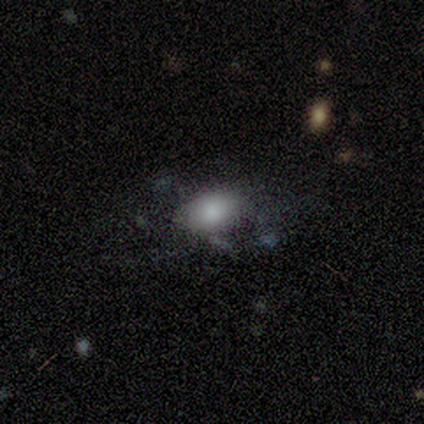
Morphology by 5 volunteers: smooth_or_featured: smooth (p=0.80) [alt: featured or disk p=0.20]
how_rounded: in between (p=1.00)
merging: major disturbance (p=0.40) [alt: none p=0.20]